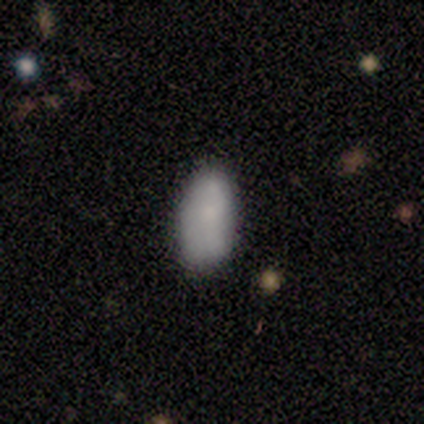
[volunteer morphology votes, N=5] Smooth or featured? 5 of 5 (100%) said smooth. How rounded? 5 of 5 (100%) said in between. Merging? 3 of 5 (60%) said none.